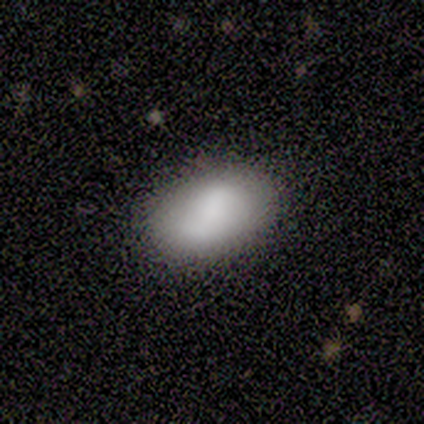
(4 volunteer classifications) A smooth galaxy with no disk features (75%) that is in between round and cigar-shaped (67%). Merging: none (100%).